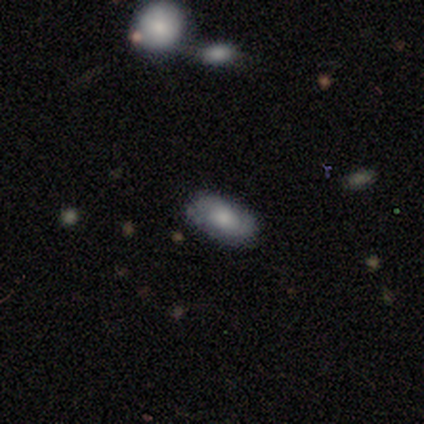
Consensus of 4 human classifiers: A smooth galaxy with no disk features (75%) that is in between round and cigar-shaped (100%). Merging: none (50%, tied with minor disturbance).